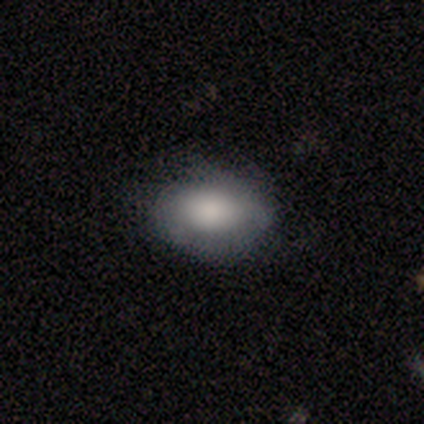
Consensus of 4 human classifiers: A smooth galaxy with no disk features (50%) that is in between round and cigar-shaped (100%). Merging: none (100%).